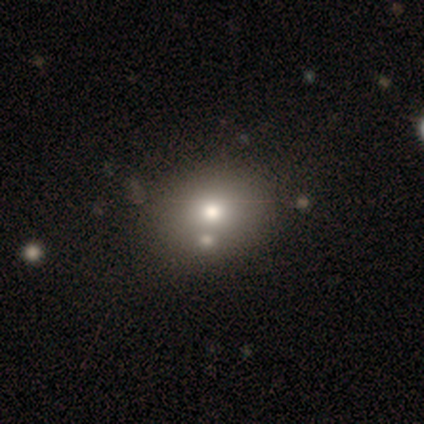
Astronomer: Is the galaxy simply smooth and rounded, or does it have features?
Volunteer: smooth — 100%.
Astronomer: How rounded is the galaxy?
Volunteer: round — 50%, tied with in between at 50%.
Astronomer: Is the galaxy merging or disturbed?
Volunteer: merger — 50%.